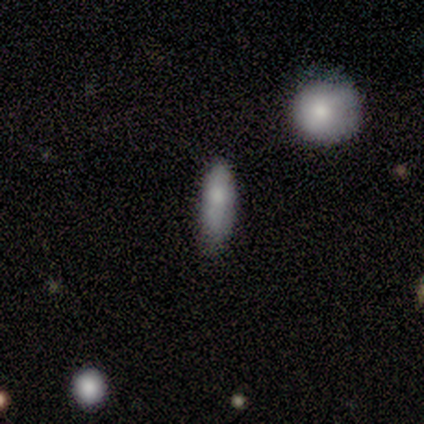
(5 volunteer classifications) Smooth or featured?
  - smooth: 100% *
  - featured or disk: 0%
  - star or artifact: 0%
How rounded?
  - in between: 60% *
  - cigar-shaped: 40%
  - round: 0%
Merging?
  - none: 100% *
  - minor disturbance: 0%
  - major disturbance: 0%
  - merger: 0%